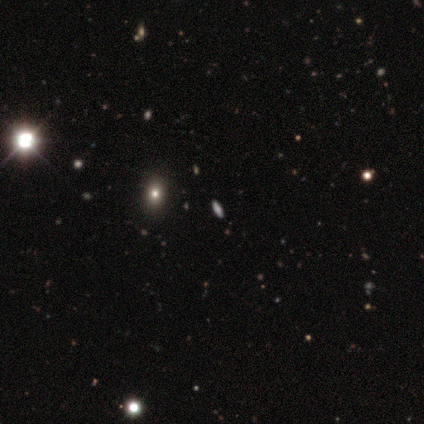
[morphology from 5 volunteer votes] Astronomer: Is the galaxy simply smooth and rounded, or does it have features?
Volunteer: featured or disk — 40%, tied with star or artifact at 40%.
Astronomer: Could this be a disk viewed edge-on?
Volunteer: yes — 50%, tied with no at 50%.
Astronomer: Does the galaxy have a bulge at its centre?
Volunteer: none — 100%.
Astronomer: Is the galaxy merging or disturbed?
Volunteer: none — 100%.